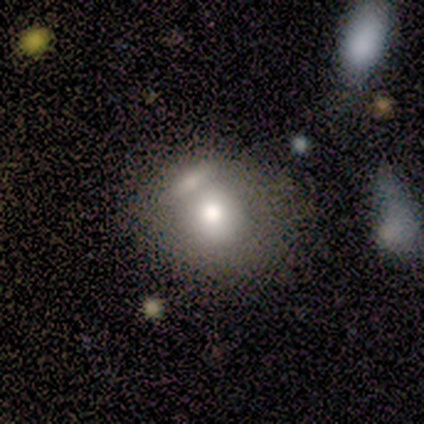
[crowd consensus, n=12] Morphology: type=smooth (83%); roundness=round (70%); merging=merger (45%).